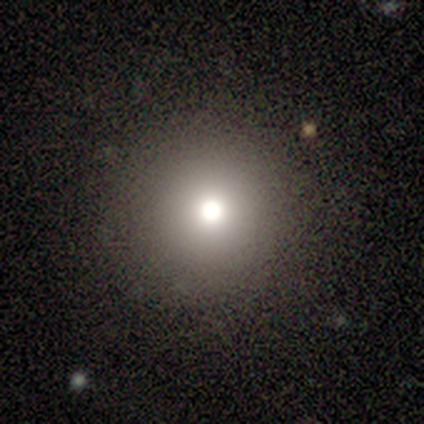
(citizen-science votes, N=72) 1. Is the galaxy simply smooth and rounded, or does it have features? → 62% smooth, 28% star or artifact, 10% featured or disk.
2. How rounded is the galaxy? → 93% round, 7% in between, 0% cigar-shaped.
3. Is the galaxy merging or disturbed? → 48% none, 2% minor disturbance, 2% major disturbance, 2% merger.